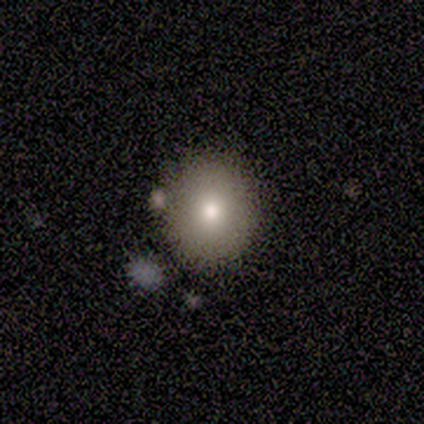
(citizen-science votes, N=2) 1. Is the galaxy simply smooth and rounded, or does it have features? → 50% smooth (tied), 50% star or artifact (tied), 0% featured or disk.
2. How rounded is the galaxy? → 100% round, 0% in between, 0% cigar-shaped.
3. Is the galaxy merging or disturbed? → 100% none, 0% minor disturbance, 0% major disturbance, 0% merger.